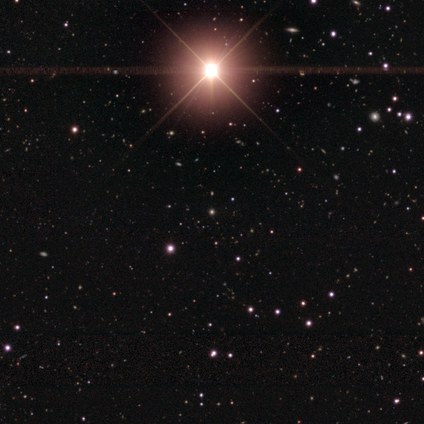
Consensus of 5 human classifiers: This is clearly a star or artifact rather than a galaxy (80%).